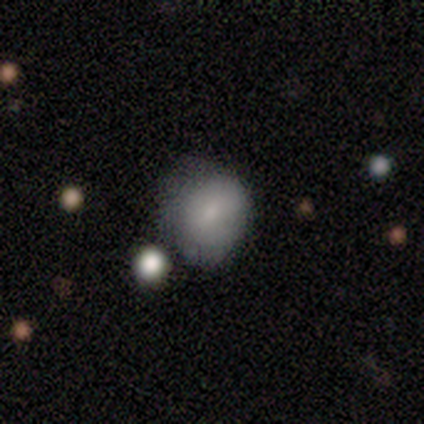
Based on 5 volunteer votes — A smooth galaxy with no disk features (100%) that is in between round and cigar-shaped (60%).

Vote fractions:
- Smooth or featured? smooth: 100% / featured or disk: 0% / star or artifact: 0%
- How rounded? in between: 60% / round: 40% / cigar-shaped: 0%
- Merging? none: 60% / minor disturbance: 20% / merger: 20% / major disturbance: 0%